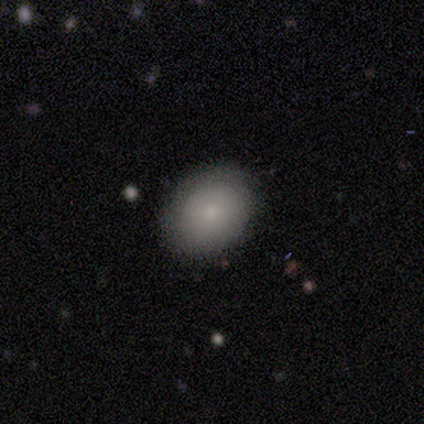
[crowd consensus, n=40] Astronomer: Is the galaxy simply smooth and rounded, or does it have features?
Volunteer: smooth — 75%.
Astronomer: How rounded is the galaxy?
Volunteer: in between — 67%.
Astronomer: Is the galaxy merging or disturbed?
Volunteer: none — 86%.